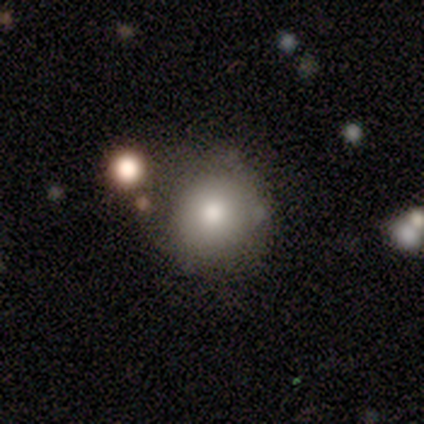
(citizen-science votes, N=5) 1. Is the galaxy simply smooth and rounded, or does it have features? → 80% smooth, 20% featured or disk, 0% star or artifact.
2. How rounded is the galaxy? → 100% round, 0% in between, 0% cigar-shaped.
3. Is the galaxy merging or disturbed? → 80% none, 20% minor disturbance, 0% major disturbance, 0% merger.